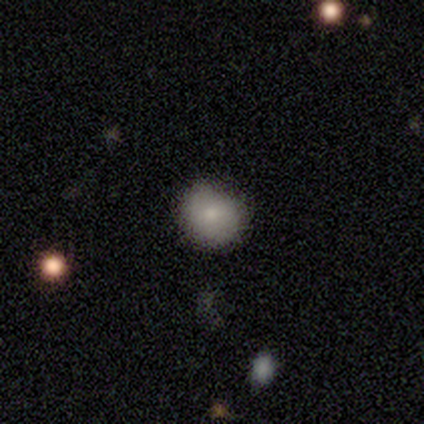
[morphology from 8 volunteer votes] Smooth or featured: smooth — 62% (featured or disk — 25%)
How rounded: round — 100%
Merging: none — 71% (minor disturbance — 14%)